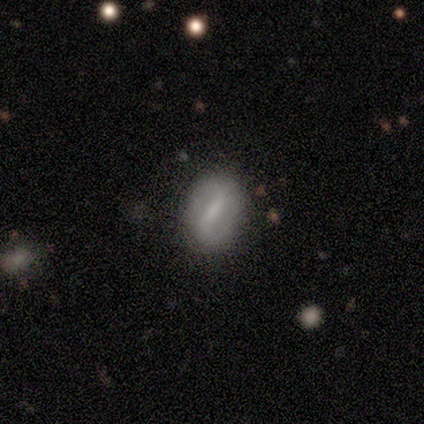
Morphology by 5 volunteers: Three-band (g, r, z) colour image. It shows a smooth galaxy with no disk features (80%) that is in between round and cigar-shaped (100%). Merging: none (100%).